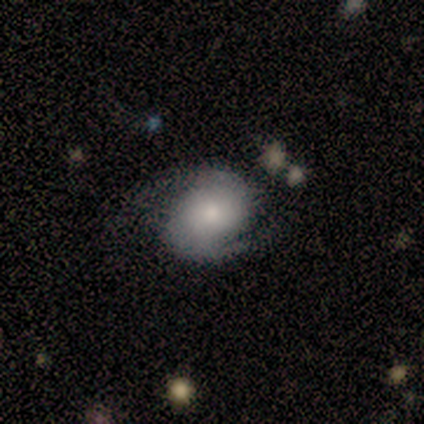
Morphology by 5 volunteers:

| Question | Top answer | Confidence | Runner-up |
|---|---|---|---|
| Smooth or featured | featured or disk | 80% | smooth (20%) |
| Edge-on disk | no | 100% | — |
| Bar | no | 75% | weak (25%) |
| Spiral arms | yes | 100% | — |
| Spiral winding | loose | 50% | tight (25%) |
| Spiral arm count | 2 | 100% | — |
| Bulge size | large | 50% | moderate (25%) |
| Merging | minor disturbance | 80% | major disturbance (20%) |